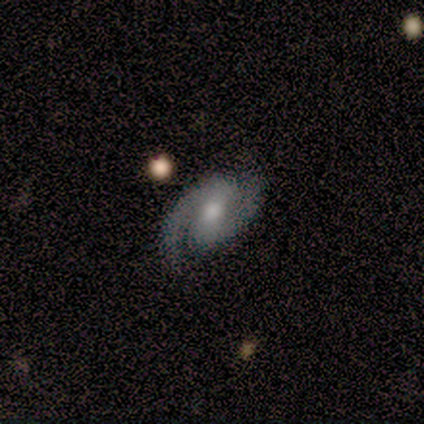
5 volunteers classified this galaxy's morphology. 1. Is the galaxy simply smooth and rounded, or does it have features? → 100% featured or disk, 0% smooth, 0% star or artifact.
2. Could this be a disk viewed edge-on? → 100% no, 0% yes.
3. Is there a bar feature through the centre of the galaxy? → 60% weak, 40% no, 0% strong.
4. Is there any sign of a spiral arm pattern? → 100% yes, 0% no.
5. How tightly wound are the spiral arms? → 40% tight (tied), 40% loose (tied), 20% medium.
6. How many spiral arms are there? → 80% 2, 20% 1, 0% 3, 0% 4, 0% more than 4, 0% can't tell.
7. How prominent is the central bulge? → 80% moderate, 20% small, 0% dominant, 0% large, 0% none.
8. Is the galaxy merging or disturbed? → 100% none, 0% minor disturbance, 0% major disturbance, 0% merger.